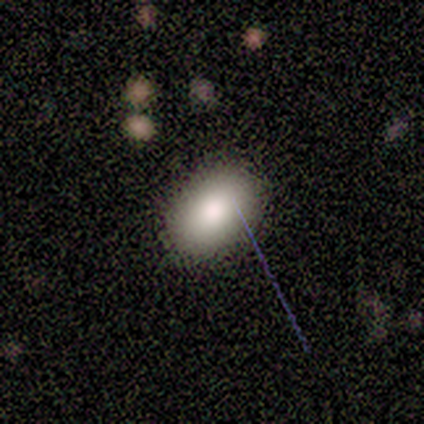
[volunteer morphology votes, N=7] smooth_or_featured: smooth (p=1.00)
how_rounded: in between (p=0.86) [alt: round p=0.14]
merging: none (p=0.86) [alt: minor disturbance p=0.14]